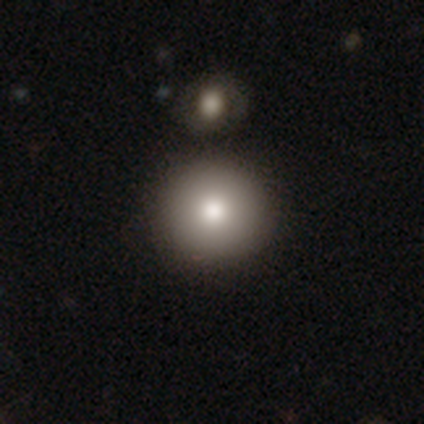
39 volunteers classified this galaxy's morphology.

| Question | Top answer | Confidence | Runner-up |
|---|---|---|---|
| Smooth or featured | smooth | 77% | featured or disk (13%) |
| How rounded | round | 90% | in between (10%) |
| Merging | none | 86% | merger (9%) |